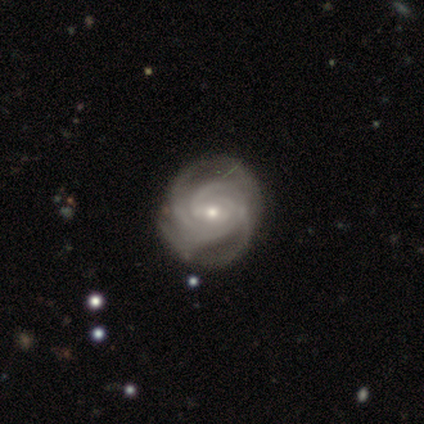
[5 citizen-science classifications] Volunteers were most divided on "bar" (2-way tie): weak: 50%, no: 50%, strong: 0%; "spiral winding" (2-way tie): tight: 50%, medium: 50%, loose: 0%; "bulge size" (2-way tie): moderate: 50%, small: 50%, dominant: 0%, large: 0%, none: 0%; "merging" (2-way tie): none: 50%, minor disturbance: 50%, major disturbance: 0%, merger: 0%. More confident: edge-on disk — no (100%); spiral arms — yes (100%); smooth or featured — featured or disk (80%); spiral arm count — 4 (75%).